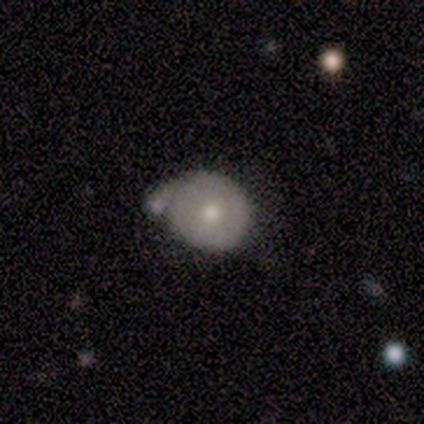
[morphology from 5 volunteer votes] smooth 60%, featured or disk 20%, star or artifact 20%. Down the decision tree: how rounded — round (67%); merging — merger (50%).